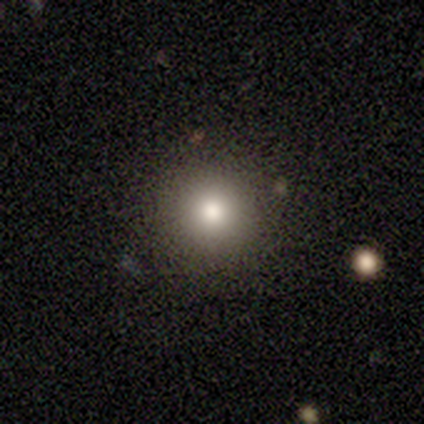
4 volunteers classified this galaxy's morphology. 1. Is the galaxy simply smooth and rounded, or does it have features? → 75% smooth, 25% star or artifact, 0% featured or disk.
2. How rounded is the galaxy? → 100% round, 0% in between, 0% cigar-shaped.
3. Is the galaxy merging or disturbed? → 67% none, 33% major disturbance, 0% minor disturbance, 0% merger.